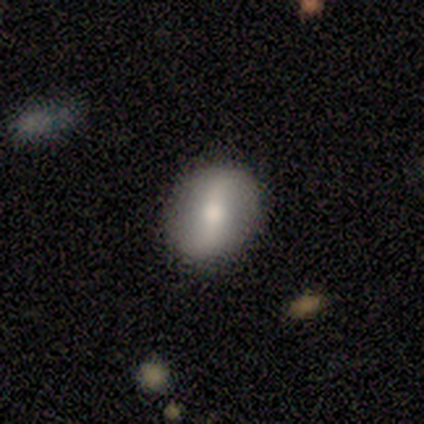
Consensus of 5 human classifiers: Smooth or featured? 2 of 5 (40%, tied with featured or disk) said smooth. How rounded? 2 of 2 (100%) said in between. Merging? 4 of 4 (100%) said none.